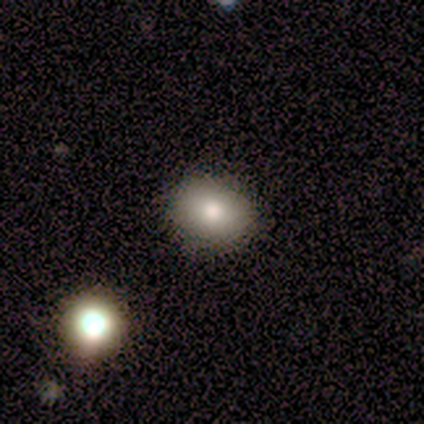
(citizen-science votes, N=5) This appears to be a smooth galaxy with no disk features (100%) that is round (80%). Merging: none (60%).